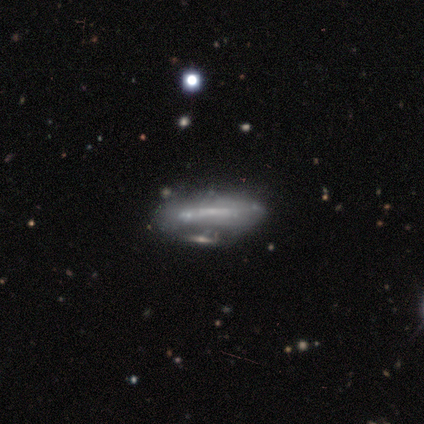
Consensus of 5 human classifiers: Smooth or featured: featured or disk — 60% (smooth — 20%)
Edge-on disk: no — 67% (yes — 33%)
Bar: strong — 50% (tied with weak — 50%)
Spiral arms: yes — 50% (tied with no — 50%)
Spiral winding: tight — 100%
Spiral arm count: can't tell — 100%
Bulge size: small — 50% (tied with none — 50%)
Merging: minor disturbance — 75% (merger — 25%)